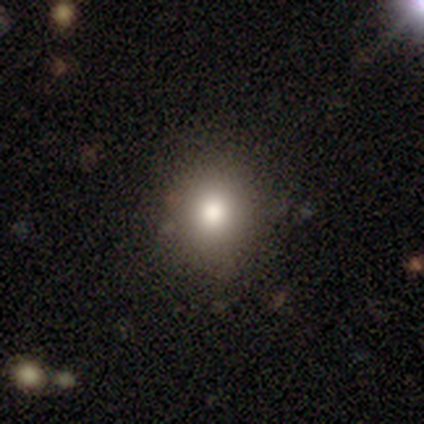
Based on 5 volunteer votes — Morphology: type=smooth (80%); roundness=round (75%); merging=none (80%).